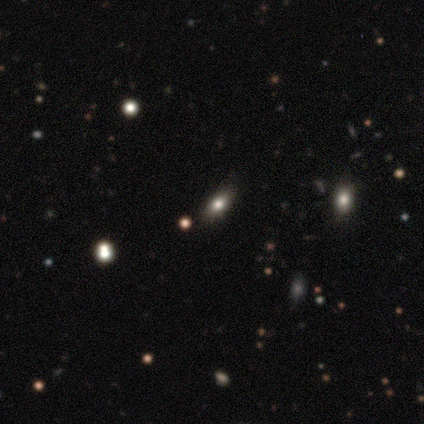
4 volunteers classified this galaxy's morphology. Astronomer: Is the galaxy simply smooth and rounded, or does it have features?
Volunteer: smooth — 50%.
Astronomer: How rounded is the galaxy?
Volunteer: in between — 100%.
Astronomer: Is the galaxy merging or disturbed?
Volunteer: none — 67%.